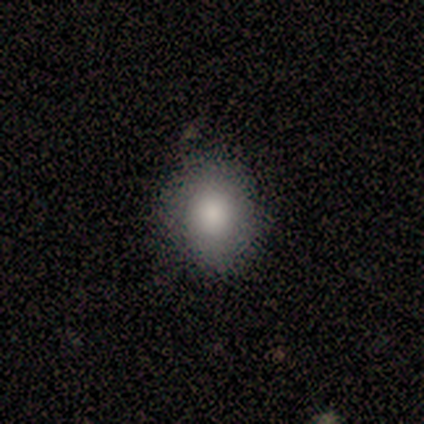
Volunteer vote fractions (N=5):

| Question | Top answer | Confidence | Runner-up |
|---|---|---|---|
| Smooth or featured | smooth | 60% | featured or disk (20%) |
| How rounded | in between | 67% | round (33%) |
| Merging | none | 100% | — |